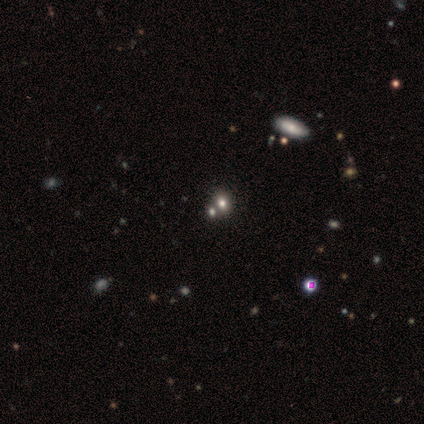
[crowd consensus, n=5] smooth-or-featured: smooth: 80% | star or artifact: 20% | featured or disk: 0%
  how-rounded: round: 50% (tied) | in between: 50% (tied) | cigar-shaped: 0%
  merging: none: 100% | minor disturbance: 0% | major disturbance: 0% | merger: 0%